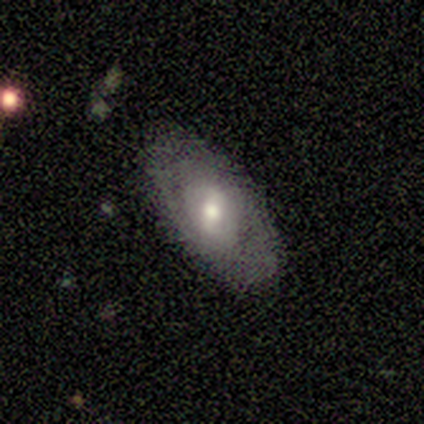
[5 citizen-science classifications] This is likely a featured or disk galaxy (60%). It is clearly not viewed edge-on (100%). Bar: marginally strong (33%, tied with weak and no). Spiral arm pattern: clearly yes (100%). Spiral arm count: marginally 1 (33%, tied with 2 and can't tell). Spiral winding: likely tight (67%). Central bulge: likely moderate (67%). Merging: clearly none (80%).